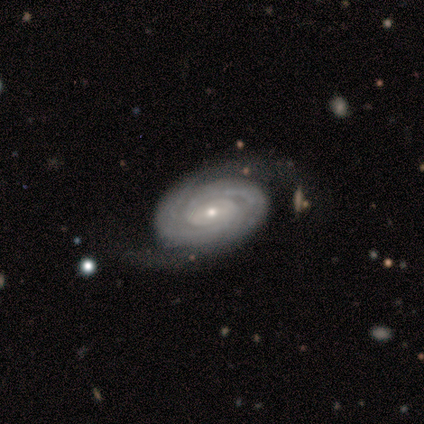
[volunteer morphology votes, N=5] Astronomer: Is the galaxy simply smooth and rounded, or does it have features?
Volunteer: featured or disk — 100%.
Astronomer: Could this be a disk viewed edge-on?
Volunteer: no — 100%.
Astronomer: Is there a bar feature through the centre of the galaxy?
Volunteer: weak — 60% (runner-up: no, 40%).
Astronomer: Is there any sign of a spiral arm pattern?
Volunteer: yes — 80%.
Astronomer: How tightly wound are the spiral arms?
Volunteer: tight — 100%.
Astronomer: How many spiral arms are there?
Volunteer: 2 — 50%, tied with can't tell at 50%.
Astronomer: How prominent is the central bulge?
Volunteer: moderate — 60%.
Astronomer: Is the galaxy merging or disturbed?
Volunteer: none — 60% (runner-up: minor disturbance, 40%).